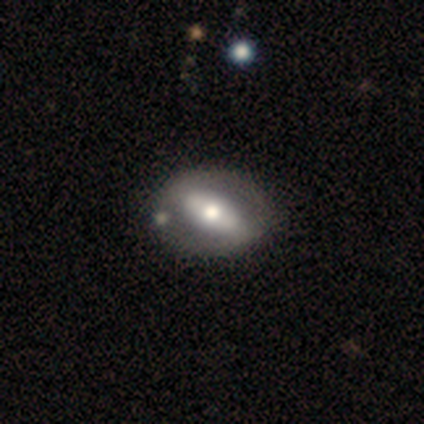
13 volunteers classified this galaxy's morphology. Overall: featured or disk (85%). Edge-on disk: no (82%). Bar: strong (44%, tied with no). Spiral arms: no (89%). Bulge size: moderate (67%; small 33%). Merging: none (69%).